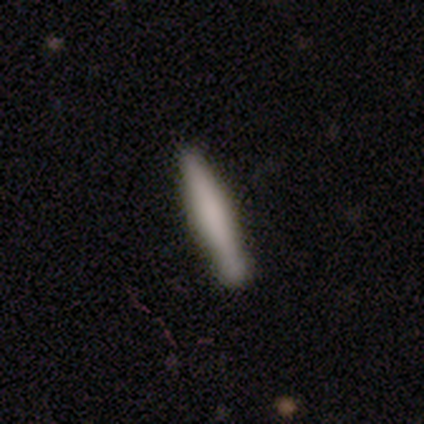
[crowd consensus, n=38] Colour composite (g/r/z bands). It shows a smooth galaxy with no disk features (82%) that is cigar-shaped (94%). Merging: none (43%).